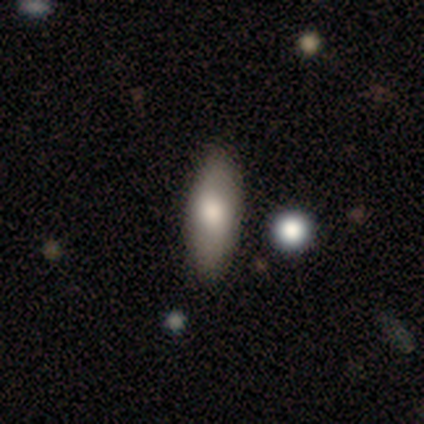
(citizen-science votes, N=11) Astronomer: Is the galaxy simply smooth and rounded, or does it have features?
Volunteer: smooth — 73%.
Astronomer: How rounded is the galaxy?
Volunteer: in between — 75%.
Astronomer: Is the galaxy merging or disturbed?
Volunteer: none — 80%.